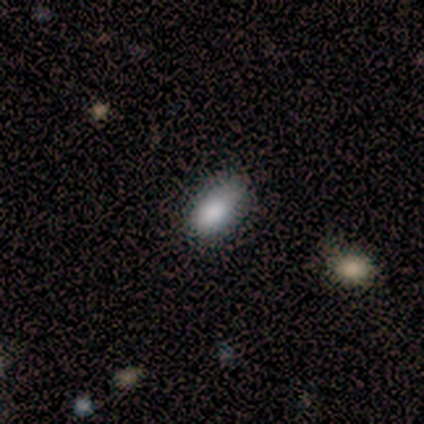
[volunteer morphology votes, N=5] A smooth galaxy with no disk features (80%) that is in between round and cigar-shaped (100%).

Vote fractions:
- Smooth or featured? smooth: 80% / featured or disk: 20% / star or artifact: 0%
- How rounded? in between: 100% / round: 0% / cigar-shaped: 0%
- Merging? minor disturbance: 60% / none: 40% / major disturbance: 0% / merger: 0%